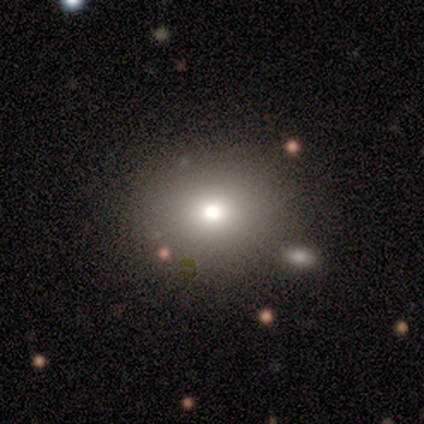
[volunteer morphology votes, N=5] type=smooth (80%); roundness=round (100%); merging=none (80%).